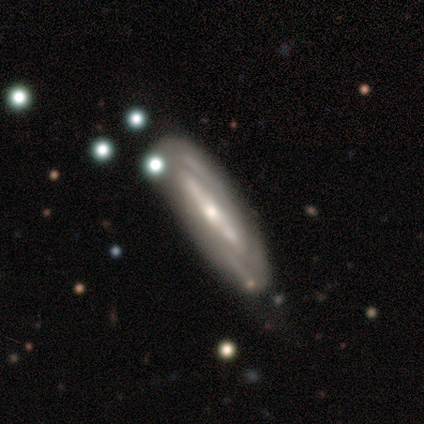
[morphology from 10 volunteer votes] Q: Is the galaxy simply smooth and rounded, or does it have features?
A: featured or disk — 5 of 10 (50%).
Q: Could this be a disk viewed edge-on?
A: no — 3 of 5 (60%).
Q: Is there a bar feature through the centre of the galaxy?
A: weak — 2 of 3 (67%).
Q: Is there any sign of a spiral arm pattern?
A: yes — 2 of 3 (67%).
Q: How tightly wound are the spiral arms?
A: tight — 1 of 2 (50%, tied with medium).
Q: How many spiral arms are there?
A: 2 — 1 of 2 (50%, tied with can't tell).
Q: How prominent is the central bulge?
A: moderate — 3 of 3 (100%).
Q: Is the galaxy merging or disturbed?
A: none — 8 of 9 (89%).